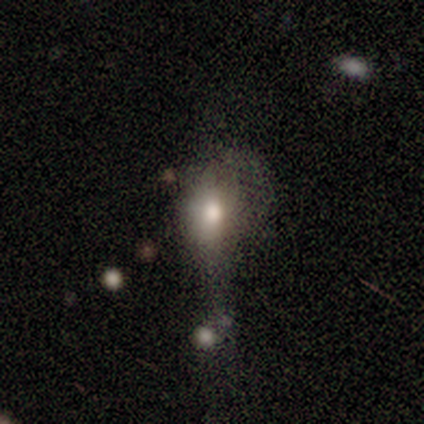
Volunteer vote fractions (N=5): A smooth galaxy with no disk features (60%) that is round (33%, tied with in between and cigar-shaped).

Vote fractions:
- Smooth or featured? smooth: 60% / featured or disk: 40% / star or artifact: 0%
- How rounded? round: 33% (tied) / in between: 33% (tied) / cigar-shaped: 33% (tied)
- Merging? major disturbance: 40% / none: 20% / minor disturbance: 20% / merger: 20%